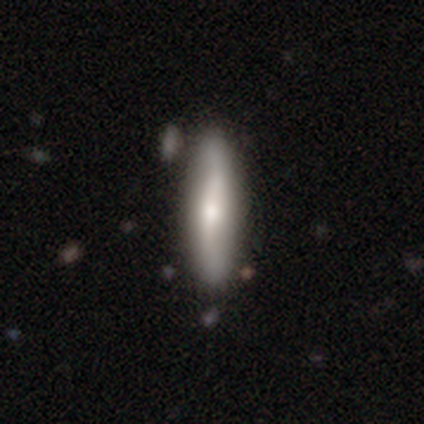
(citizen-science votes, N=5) Smooth or featured? smooth (60%)
How rounded? cigar-shaped (100%)
Merging? none (80%)